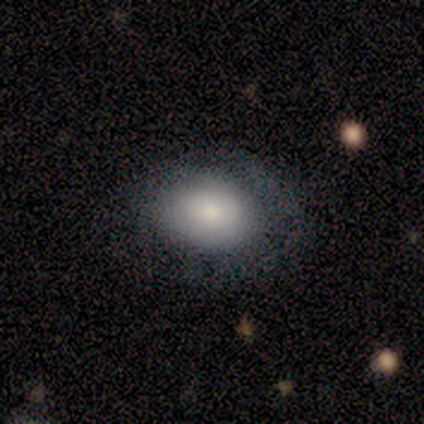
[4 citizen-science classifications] Overall: smooth (100%). How rounded: in between (100%). Merging: none (100%).